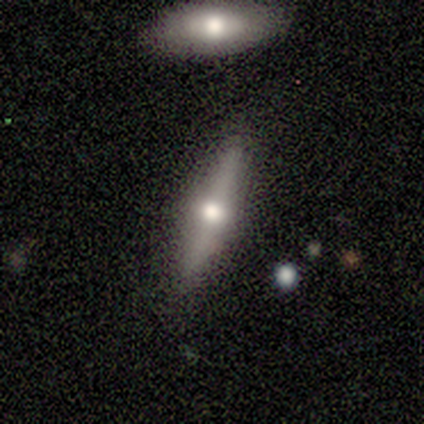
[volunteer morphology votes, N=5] type=featured or disk (100%); edge-on=yes (80%); edge-on bulge=rounded (100%); merging=none (80%).